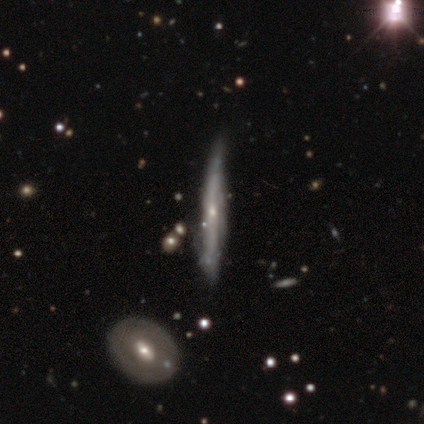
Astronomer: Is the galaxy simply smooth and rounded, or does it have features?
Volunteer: featured or disk — 68%.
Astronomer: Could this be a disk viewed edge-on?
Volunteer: yes — 93%.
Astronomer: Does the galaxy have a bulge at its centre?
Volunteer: rounded — 52% (runner-up: none, 44%).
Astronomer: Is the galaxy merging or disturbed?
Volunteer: none — 69%.